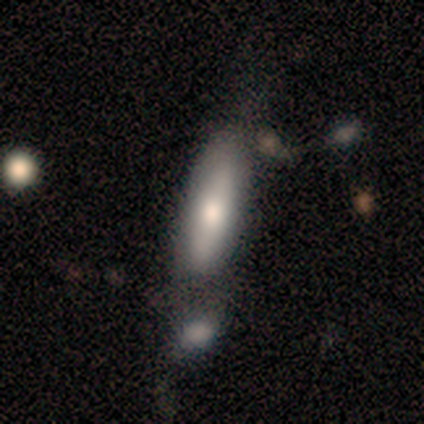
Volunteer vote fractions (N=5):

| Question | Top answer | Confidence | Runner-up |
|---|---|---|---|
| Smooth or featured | featured or disk | 60% | smooth (20%) |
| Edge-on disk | yes | 100% | — |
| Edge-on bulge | rounded | 67% | none (33%) |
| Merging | merger | 75% | minor disturbance (25%) |